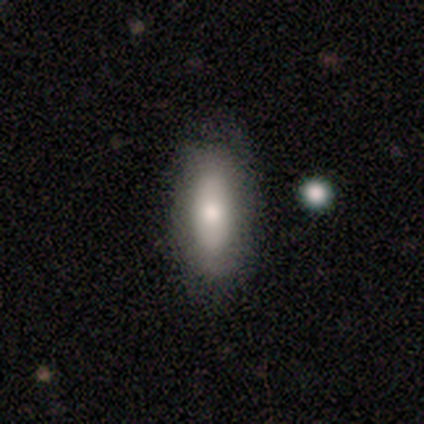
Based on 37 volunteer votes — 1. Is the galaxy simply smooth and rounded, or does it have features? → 81% smooth, 19% featured or disk, 0% star or artifact.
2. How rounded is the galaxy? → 80% in between, 20% cigar-shaped, 0% round.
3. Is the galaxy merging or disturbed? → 76% none, 19% minor disturbance, 5% major disturbance, 0% merger.